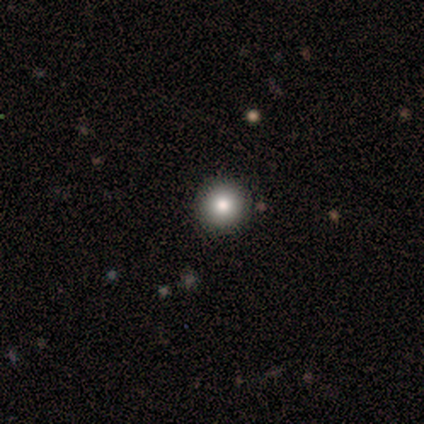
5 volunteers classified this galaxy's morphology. Overall: smooth (80%). How rounded: round (100%). Merging: none (100%).